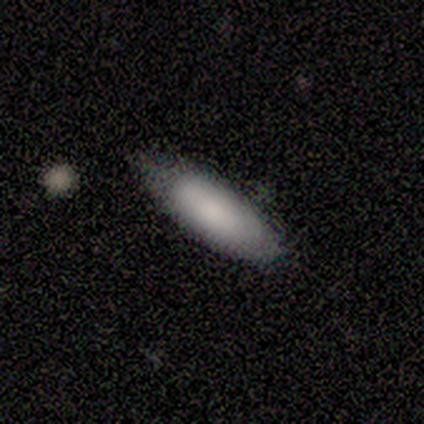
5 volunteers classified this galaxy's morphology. Volunteers were most divided on "merging": none: 60%, minor disturbance: 40%, major disturbance: 0%, merger: 0%. More confident: smooth or featured — smooth (80%); how rounded — in between (75%).